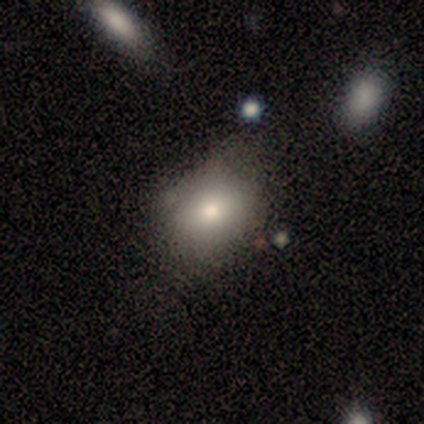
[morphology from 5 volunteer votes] A smooth galaxy with no disk features (80%) that is round (75%).

Vote fractions:
- Smooth or featured? smooth: 80% / star or artifact: 20% / featured or disk: 0%
- How rounded? round: 75% / in between: 25% / cigar-shaped: 0%
- Merging? none: 50% (tied) / minor disturbance: 50% (tied) / major disturbance: 0% / merger: 0%